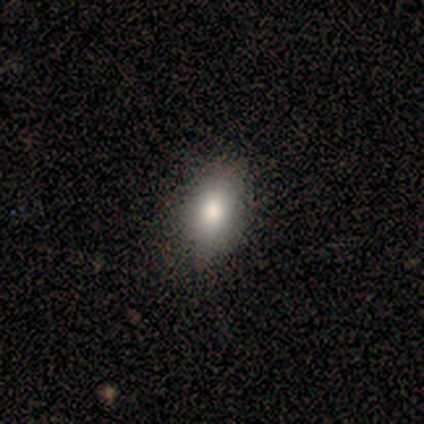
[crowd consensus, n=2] Smooth or featured?
  - smooth: 50% * (tied)
  - star or artifact: 50% * (tied)
  - featured or disk: 0%
How rounded?
  - in between: 100% *
  - round: 0%
  - cigar-shaped: 0%
Merging?
  - none: 100% *
  - minor disturbance: 0%
  - major disturbance: 0%
  - merger: 0%